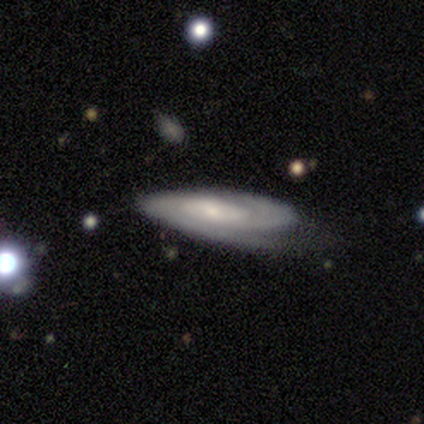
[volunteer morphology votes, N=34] type=featured or disk (88%); edge-on=no (80%); bar=no (67%); spiral arms=yes (83%); winding=tight (55%); arm count=can't tell (50%); bulge=small (62%); merging=none (50%).